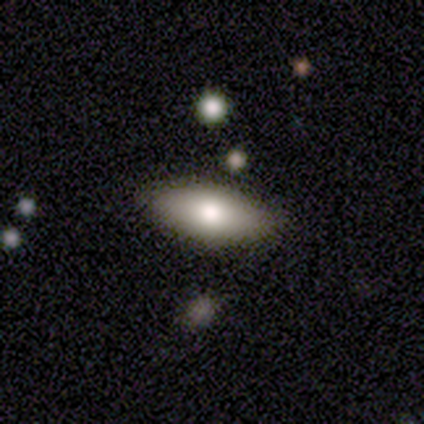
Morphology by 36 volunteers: smooth_or_featured: smooth (p=0.69) [alt: featured or disk p=0.25]
how_rounded: in between (p=0.96) [alt: round p=0.04]
merging: none (p=0.88) [alt: merger p=0.06]